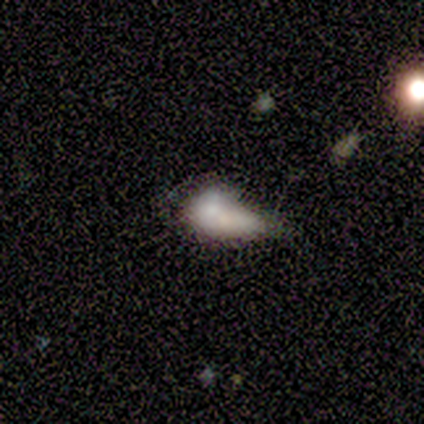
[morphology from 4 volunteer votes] Q: Smooth or featured?
A: smooth (50%); runner-up: featured or disk (25%)
Q: How rounded?
A: in between (100%)
Q: Merging?
A: major disturbance (67%); runner-up: merger (33%)